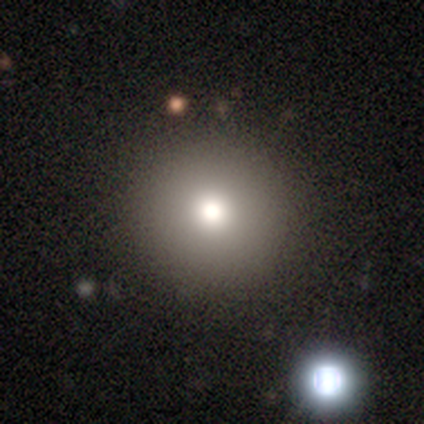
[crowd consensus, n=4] smooth-or-featured: featured or disk: 50% | smooth: 25% | star or artifact: 25%
  disk-edge-on: no: 100% | yes: 0%
    bar: no: 100% | strong: 0% | weak: 0%
    has-spiral-arms: no: 100% | yes: 0%
    bulge-size: small: 100% | dominant: 0% | large: 0% | moderate: 0% | none: 0%
  merging: none: 100% | minor disturbance: 0% | major disturbance: 0% | merger: 0%